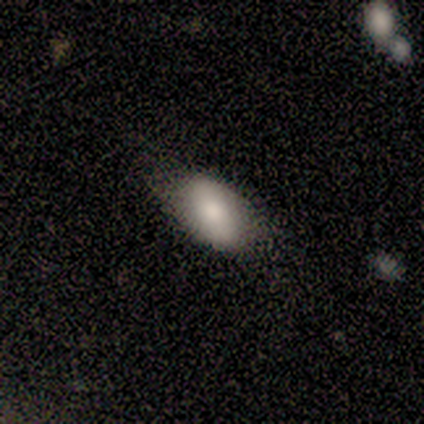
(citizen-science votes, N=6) A smooth galaxy with no disk features (67%) that is in between round and cigar-shaped (100%). Merging: none (80%).